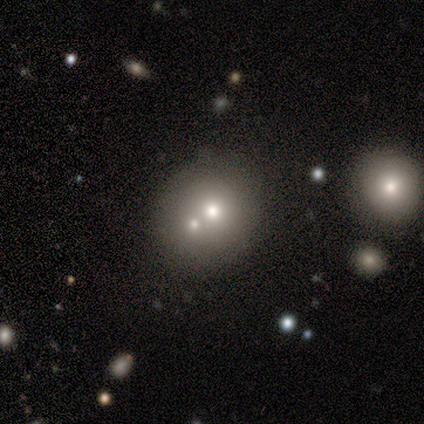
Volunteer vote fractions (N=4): A featured or disk galaxy (75%) with no bar (100%), no spiral arms (100%) and a moderate central bulge (67%). Merging: minor disturbance (50%, tied with merger).